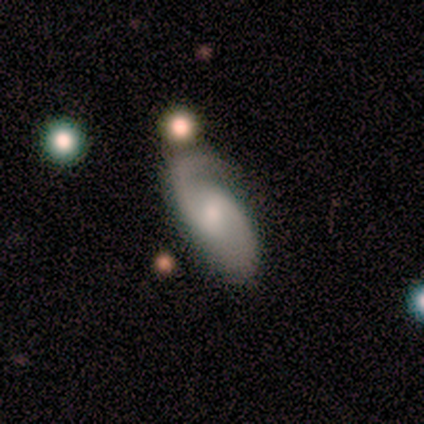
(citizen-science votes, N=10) smooth_or_featured: featured or disk (p=0.80) [alt: smooth p=0.20]
disk_edge_on: no (p=1.00)
bar: strong (p=0.38) [tied with: weak p=0.38]
has_spiral_arms: yes (p=0.88) [alt: no p=0.12]
spiral_winding: medium (p=0.71) [alt: tight p=0.14]
spiral_arm_count: 2 (p=0.71) [alt: 1 p=0.14]
bulge_size: moderate (p=0.88) [alt: small p=0.12]
merging: none (p=0.60) [alt: minor disturbance p=0.20]